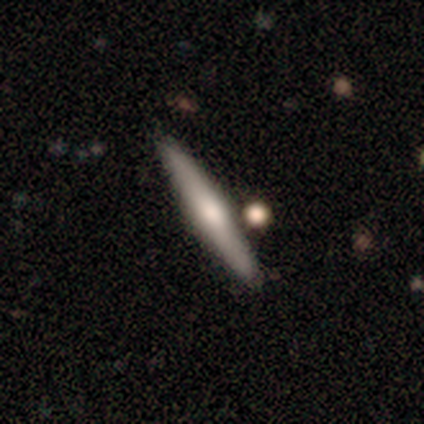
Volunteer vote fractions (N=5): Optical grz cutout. It shows a featured or disk galaxy (80%) viewed edge-on (75%) with a rounded central bulge (100%). Merging: none (100%).